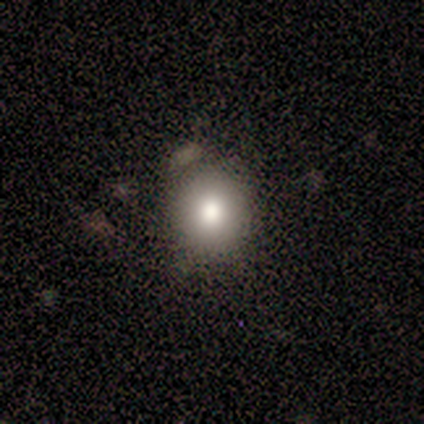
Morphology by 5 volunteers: type=smooth (100%); roundness=round (80%); merging=none (80%).